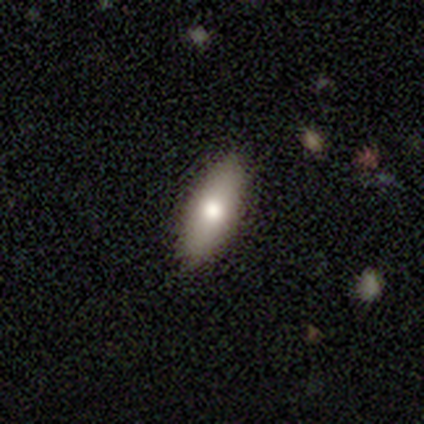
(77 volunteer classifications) smooth 82%, featured or disk 14%, star or artifact 4%. Down the decision tree: how rounded — in between (76%); merging — none (58%).